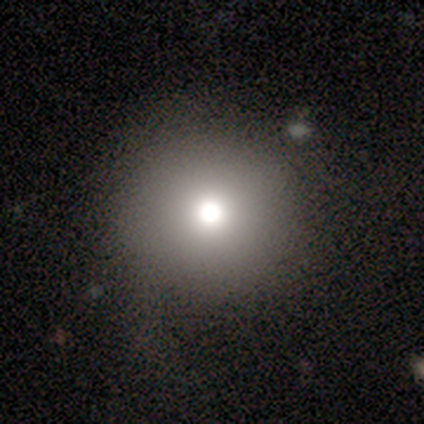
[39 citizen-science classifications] smooth 72%, featured or disk 18%, star or artifact 10%. Down the decision tree: how rounded — round (96%); merging — none (69%).